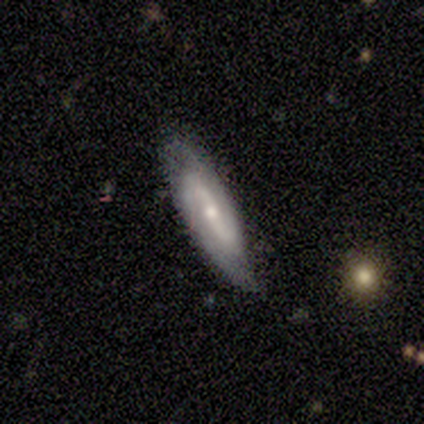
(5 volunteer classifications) Q: Smooth or featured?
A: featured or disk (80%); runner-up: smooth (20%)
Q: Edge-on disk?
A: no (100%)
Q: Bar?
A: strong (50%); runner-up: weak (25%)
Q: Spiral arms?
A: yes (75%); runner-up: no (25%)
Q: Spiral winding?
A: medium (67%); runner-up: loose (33%)
Q: Spiral arm count?
A: 2 (100%)
Q: Bulge size?
A: small (75%); runner-up: moderate (25%)
Q: Merging?
A: none (80%); runner-up: major disturbance (20%)